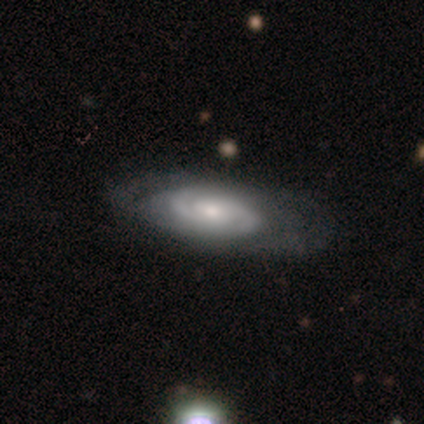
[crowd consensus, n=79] smooth_or_featured: featured or disk (p=0.86) [alt: smooth p=0.10]
disk_edge_on: no (p=0.91) [alt: yes p=0.09]
bar: no (p=0.68) [alt: weak p=0.31]
has_spiral_arms: yes (p=0.90) [alt: no p=0.10]
spiral_winding: tight (p=0.59) [alt: medium p=0.39]
spiral_arm_count: 2 (p=0.80) [alt: can't tell p=0.14]
bulge_size: moderate (p=0.53) [alt: small p=0.35]
merging: none (p=0.43) [alt: minor disturbance p=0.05]